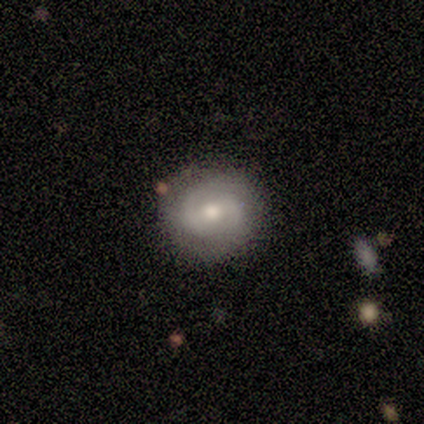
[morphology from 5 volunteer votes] smooth-or-featured: featured or disk: 80% | star or artifact: 20% | smooth: 0%
  disk-edge-on: no: 100% | yes: 0%
    bar: weak: 50% | strong: 25% | no: 25%
    has-spiral-arms: yes: 75% | no: 25%
      spiral-winding: tight: 100% | medium: 0% | loose: 0%
      spiral-arm-count: 2: 100% | 1: 0% | 3: 0% | 4: 0% | more than 4: 0% | can't tell: 0%
    bulge-size: moderate: 100% | dominant: 0% | large: 0% | small: 0% | none: 0%
  merging: none: 75% | minor disturbance: 25% | major disturbance: 0% | merger: 0%